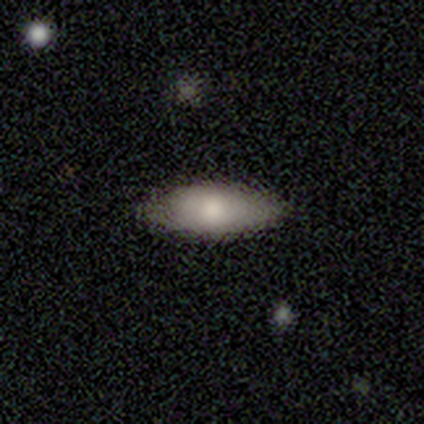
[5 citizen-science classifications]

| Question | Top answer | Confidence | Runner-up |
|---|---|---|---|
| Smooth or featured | smooth | 100% | — |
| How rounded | in between | 100% | — |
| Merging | none | 100% | — |